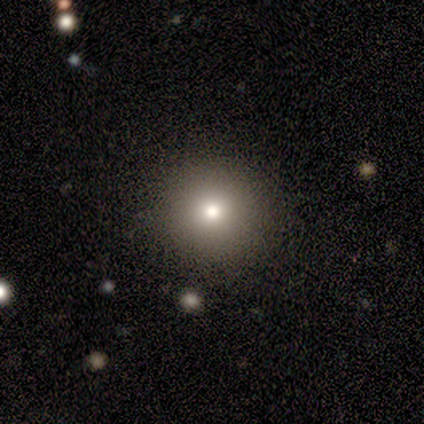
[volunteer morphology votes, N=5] Smooth or featured: smooth — 80% (featured or disk — 20%)
How rounded: round — 100%
Merging: none — 100%